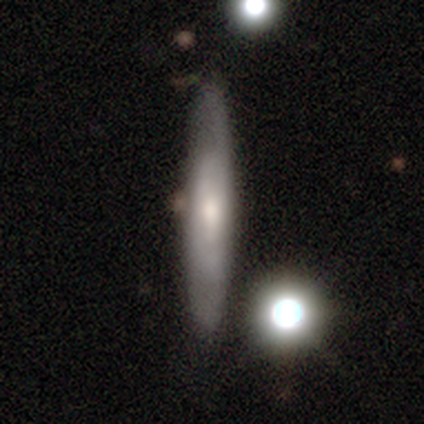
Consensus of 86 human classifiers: smooth-or-featured: featured or disk: 55% | smooth: 40% | star or artifact: 6%
  disk-edge-on: yes: 64% | no: 36%
    edge-on-bulge: rounded: 47% | none: 40% | boxy: 13%
  merging: none: 83% | minor disturbance: 9% | major disturbance: 6% | merger: 2%